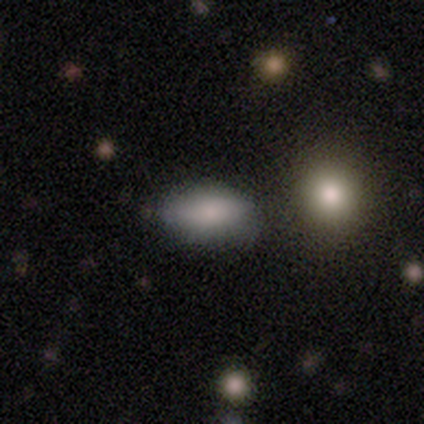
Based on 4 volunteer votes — smooth_or_featured: smooth (p=0.75) [alt: star or artifact p=0.25]
how_rounded: in between (p=0.67) [alt: cigar-shaped p=0.33]
merging: none (p=0.33) [tied with: minor disturbance p=0.33, merger p=0.33]